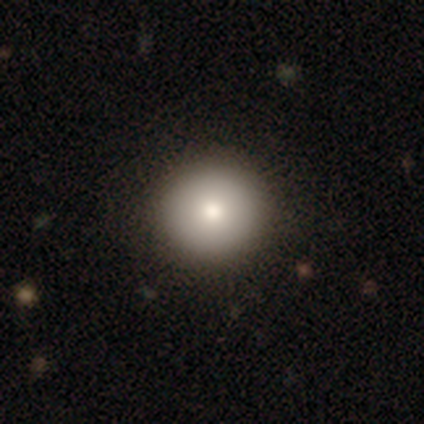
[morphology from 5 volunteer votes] This is clearly a smooth galaxy (100%). How rounded: clearly round (80%). Merging: clearly none (80%).